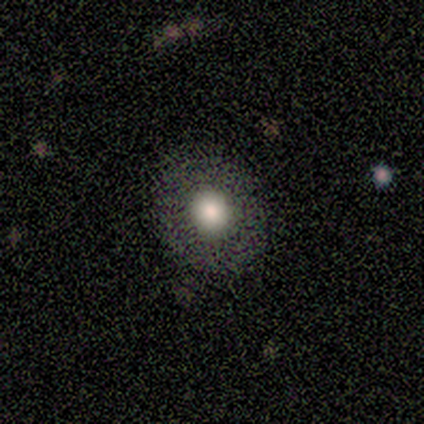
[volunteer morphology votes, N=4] featured or disk 50%, smooth 25%, star or artifact 25%. Down the decision tree: edge-on disk — no (100%); bar — no (100%); spiral arms — no (100%); bulge size — large (100%); merging — none (100%).